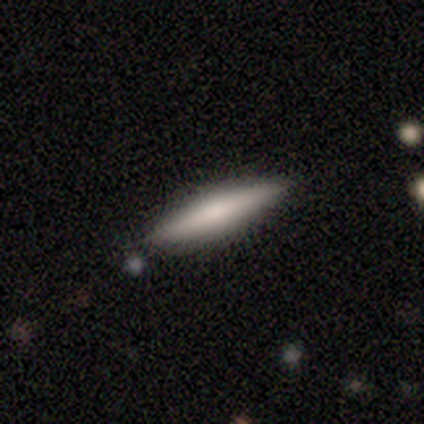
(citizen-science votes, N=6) This is possibly a featured or disk galaxy (50%). It is clearly viewed edge-on (100%). Edge-on bulge: likely none (67%). Merging: clearly none (100%).